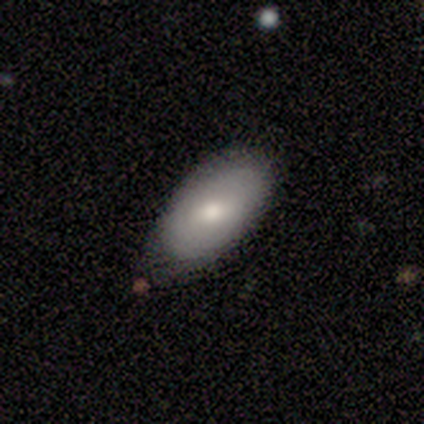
This appears to be a smooth galaxy with no disk features (80%) that is in between round and cigar-shaped (100%). Merging: none (100%).